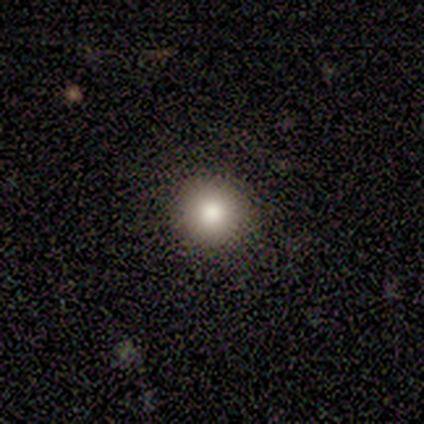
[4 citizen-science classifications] Volunteers were most divided on "smooth or featured": smooth: 75%, featured or disk: 25%, star or artifact: 0%. More confident: how rounded — round (100%); merging — none (100%).